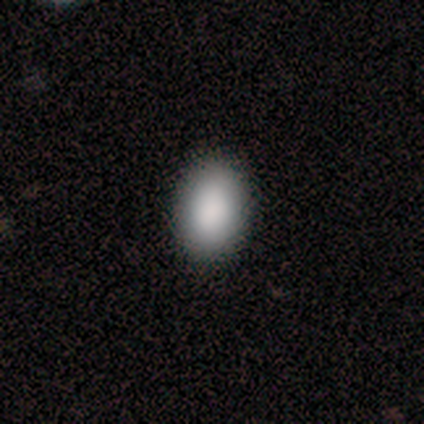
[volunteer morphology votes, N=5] type=smooth (100%); roundness=in between (80%); merging=none (100%).